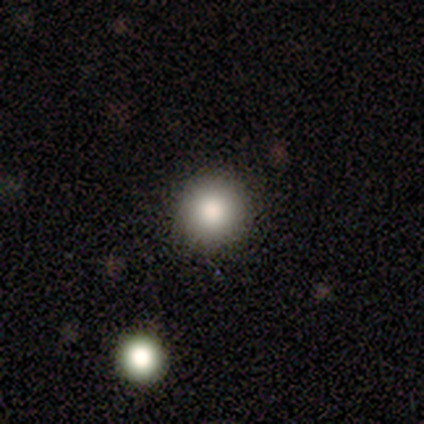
smooth 80%, featured or disk 20%, star or artifact 0%. Down the decision tree: how rounded — round (100%); merging — none (80%).